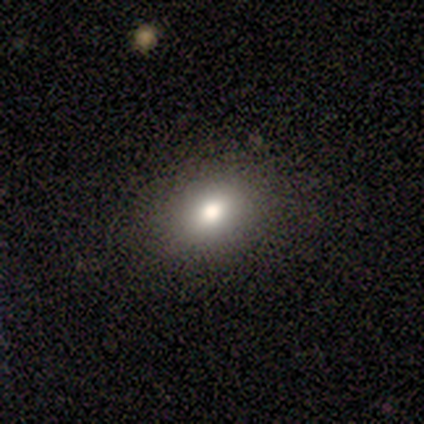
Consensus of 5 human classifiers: Smooth or featured? smooth (80%)
How rounded? in between (100%)
Merging? none (100%)